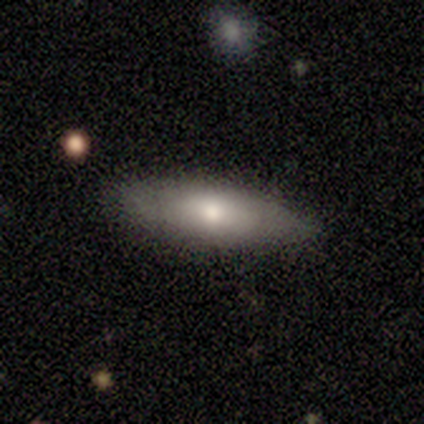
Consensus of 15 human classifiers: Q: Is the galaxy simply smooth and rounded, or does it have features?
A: smooth — 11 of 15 (73%).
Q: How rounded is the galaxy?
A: in between — 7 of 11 (64%).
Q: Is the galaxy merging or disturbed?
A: none — 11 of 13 (85%).